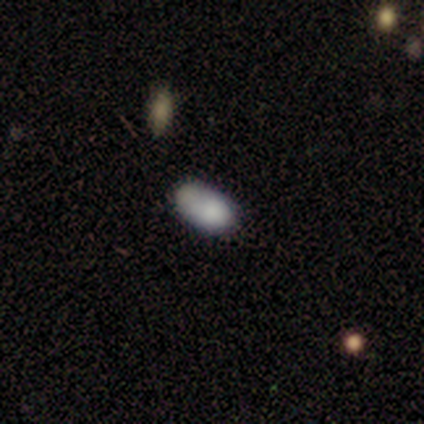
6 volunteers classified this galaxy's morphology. smooth-or-featured: smooth: 83% | star or artifact: 17% | featured or disk: 0%
  how-rounded: in between: 100% | round: 0% | cigar-shaped: 0%
  merging: none: 60% | minor disturbance: 20% | merger: 20% | major disturbance: 0%